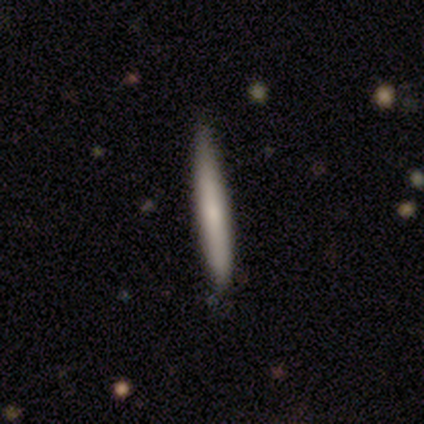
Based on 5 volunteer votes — Overall: smooth (80%). How rounded: cigar-shaped (75%). Merging: none (40%, tied with minor disturbance).